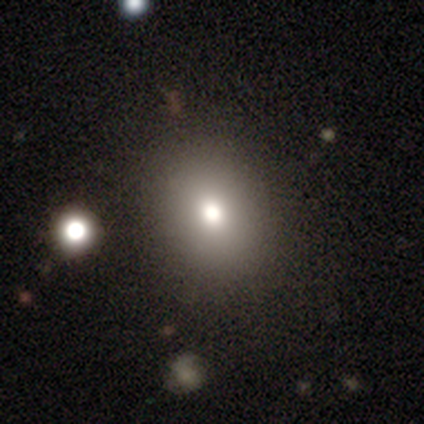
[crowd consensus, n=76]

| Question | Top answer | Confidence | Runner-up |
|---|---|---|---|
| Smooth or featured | smooth | 75% | star or artifact (14%) |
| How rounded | round | 53% | in between (47%) |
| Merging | none | 46% | minor disturbance (3%) |